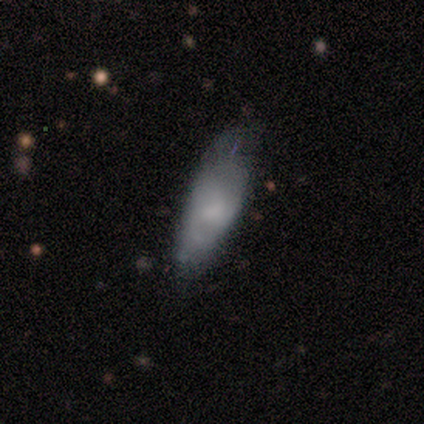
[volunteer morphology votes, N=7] Overall: smooth (71%). How rounded: in between (60%; cigar-shaped 40%). Merging: minor disturbance (50%; none 33%).